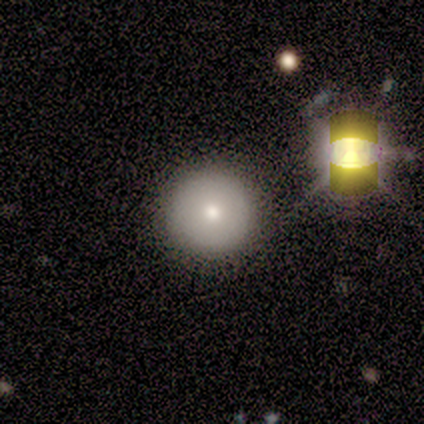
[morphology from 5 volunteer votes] smooth_or_featured: star or artifact (p=0.60) [alt: smooth p=0.40]